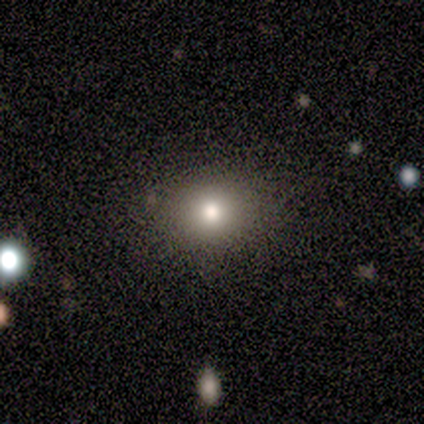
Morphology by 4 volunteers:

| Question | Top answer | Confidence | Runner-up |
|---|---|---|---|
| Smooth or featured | smooth | 50% | featured or disk (25%) |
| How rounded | round | 50% | tied: in between (50%) |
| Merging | none | 100% | — |